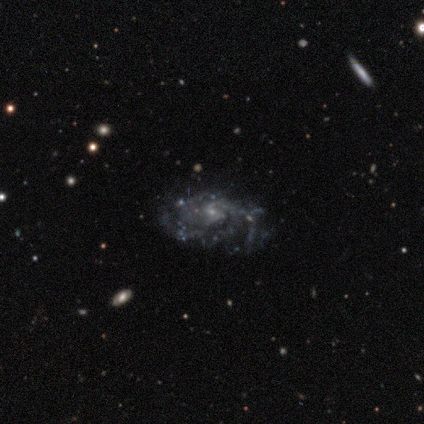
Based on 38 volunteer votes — Smooth or featured: featured or disk — 92% (star or artifact — 5%)
Edge-on disk: no — 100%
Bar: no — 49% (weak — 43%)
Spiral arms: yes — 91% (no — 9%)
Spiral winding: tight — 44% (tied with medium — 44%)
Spiral arm count: 3 — 34% (4 — 25%)
Bulge size: small — 86% (moderate — 9%)
Merging: none — 72% (minor disturbance — 17%)